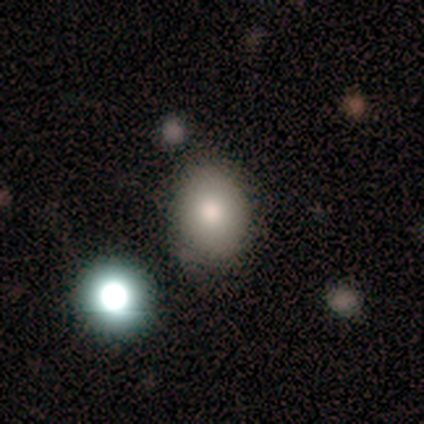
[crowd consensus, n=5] This appears to be a smooth galaxy with no disk features (80%) that is round (50%, tied with in between). Merging: minor disturbance (40%).